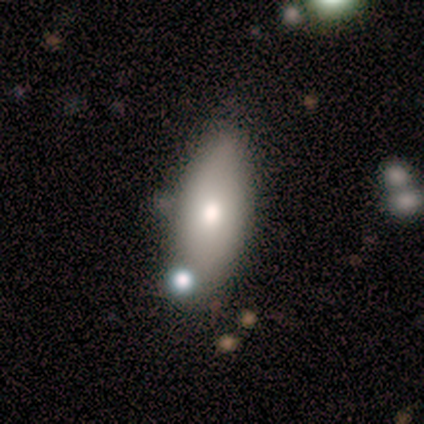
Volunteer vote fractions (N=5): Smooth or featured? smooth (100%)
How rounded? in between (80%)
Merging? none (60%)